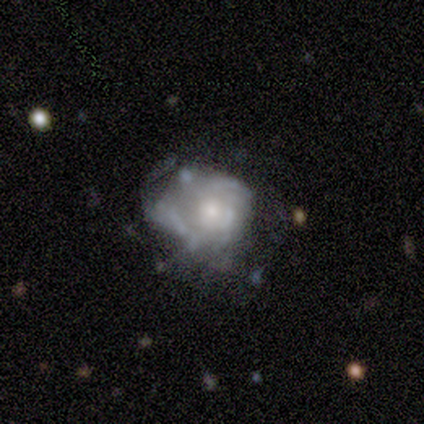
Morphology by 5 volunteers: Volunteers were most divided on "smooth or featured": featured or disk: 60%, smooth: 40%, star or artifact: 0%. More confident: edge-on disk — no (100%); bar — no (100%); spiral arms — no (100%); bulge size — moderate (67%); merging — minor disturbance (60%).